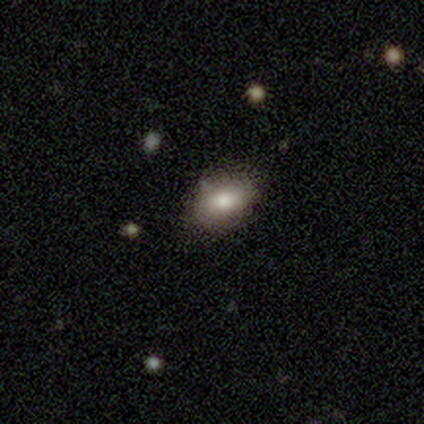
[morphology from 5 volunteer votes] Smooth or featured: smooth — 100%
How rounded: in between — 80% (round — 20%)
Merging: none — 60% (minor disturbance — 40%)